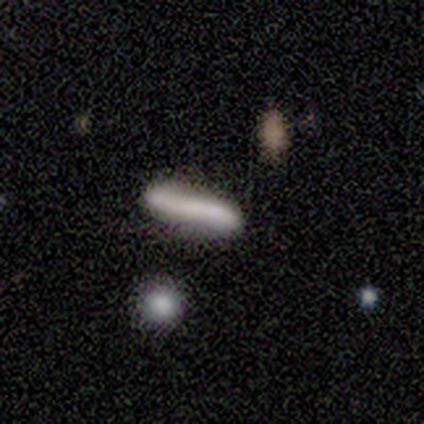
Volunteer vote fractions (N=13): Smooth or featured? smooth (77%)
How rounded? cigar-shaped (70%)
Merging? none (75%)